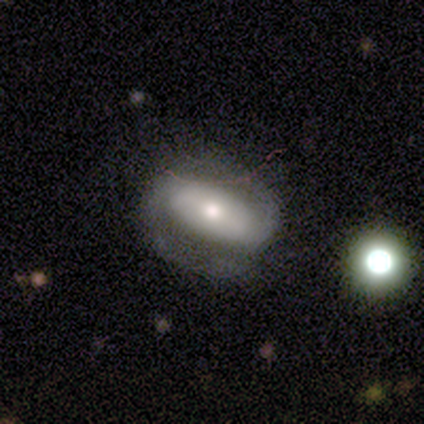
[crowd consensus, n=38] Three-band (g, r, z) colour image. It shows a featured or disk galaxy (79%) with a strong bar (54%), 2 (100%) medium (50%) spiral arms (86%) and a small central bulge (46%). Merging: none (89%).